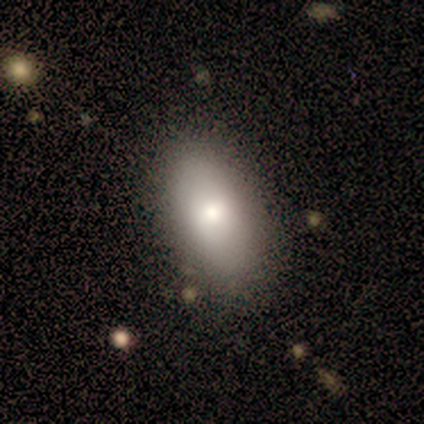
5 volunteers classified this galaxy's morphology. type=smooth (60%); roundness=in between (100%); merging=none (80%).